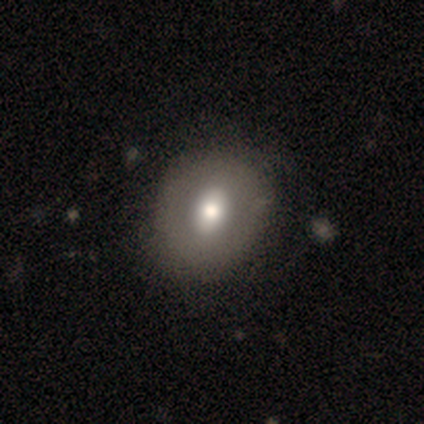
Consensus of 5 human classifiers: A smooth galaxy with no disk features (60%) that is in between round and cigar-shaped (100%).

Vote fractions:
- Smooth or featured? smooth: 60% / featured or disk: 40% / star or artifact: 0%
- How rounded? in between: 100% / round: 0% / cigar-shaped: 0%
- Merging? none: 100% / minor disturbance: 0% / major disturbance: 0% / merger: 0%